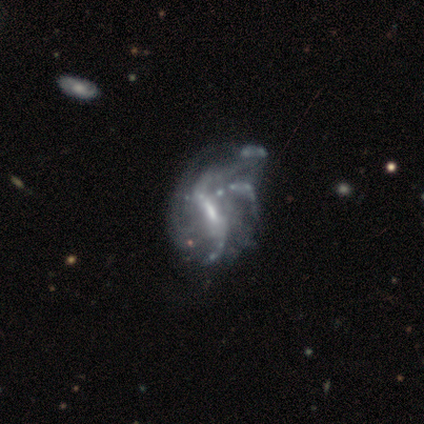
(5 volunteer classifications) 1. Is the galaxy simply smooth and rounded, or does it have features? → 100% featured or disk, 0% smooth, 0% star or artifact.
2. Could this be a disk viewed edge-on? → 100% no, 0% yes.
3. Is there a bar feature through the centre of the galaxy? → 80% weak, 20% strong, 0% no.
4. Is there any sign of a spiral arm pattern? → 100% yes, 0% no.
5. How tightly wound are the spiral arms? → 80% loose, 20% medium, 0% tight.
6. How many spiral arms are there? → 40% 2 (tied), 40% 3 (tied), 20% can't tell, 0% 1, 0% 4, 0% more than 4.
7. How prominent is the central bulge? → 40% moderate (tied), 40% small (tied), 20% none, 0% dominant, 0% large.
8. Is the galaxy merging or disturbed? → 60% minor disturbance, 40% none, 0% major disturbance, 0% merger.